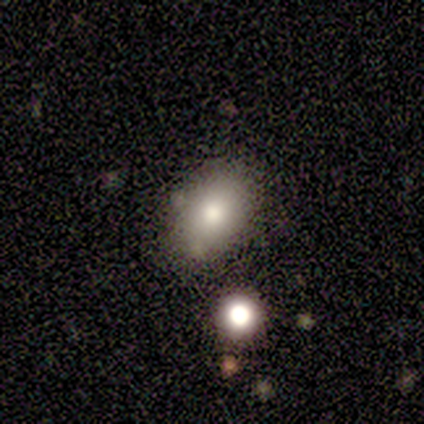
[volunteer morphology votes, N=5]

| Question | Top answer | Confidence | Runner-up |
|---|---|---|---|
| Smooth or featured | smooth | 60% | star or artifact (40%) |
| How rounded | in between | 67% | round (33%) |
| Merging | none | 100% | — |